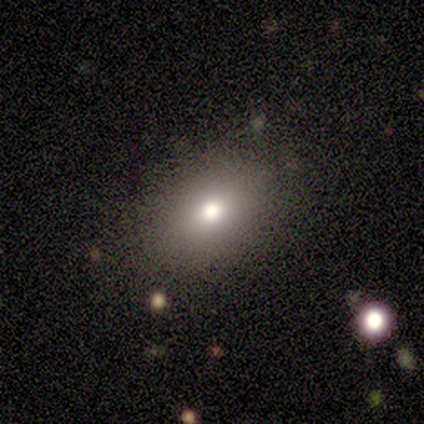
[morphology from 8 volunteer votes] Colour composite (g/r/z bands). It shows a smooth galaxy with no disk features (88%) that is in between round and cigar-shaped (100%). Merging: none (100%).